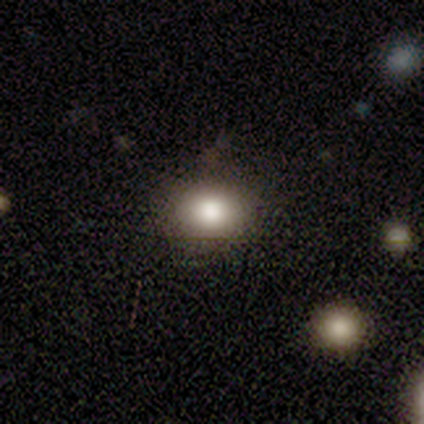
Smooth or featured: smooth — 100%
How rounded: round — 67% (in between — 33%)
Merging: none — 100%